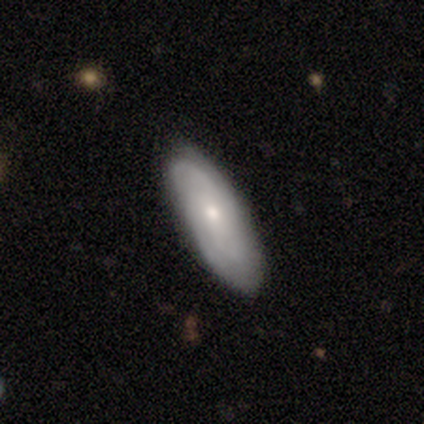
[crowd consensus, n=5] Overall: featured or disk (60%; smooth 40%). Edge-on disk: no (100%). Bar: no (67%; weak 33%). Spiral arms: yes (67%; no 33%). Spiral arm count: 2 (50%, tied with 3). Spiral winding: tight (50%, tied with medium). Bulge size: small (67%; moderate 33%). Merging: none (80%).